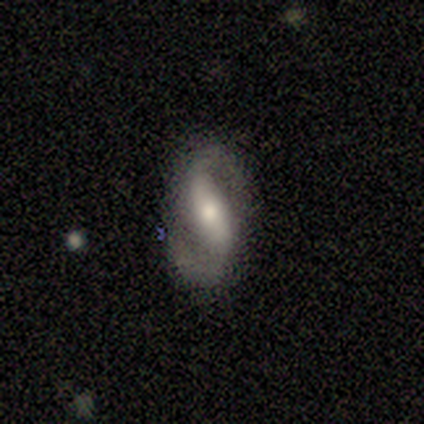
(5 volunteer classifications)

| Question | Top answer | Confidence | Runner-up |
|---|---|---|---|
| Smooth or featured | featured or disk | 100% | — |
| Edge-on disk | no | 80% | yes (20%) |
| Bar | strong | 50% | tied: weak (50%) |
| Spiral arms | yes | 100% | — |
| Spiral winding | medium | 75% | loose (25%) |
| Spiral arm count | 2 | 100% | — |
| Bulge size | large | 50% | moderate (25%) |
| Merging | none | 80% | minor disturbance (20%) |